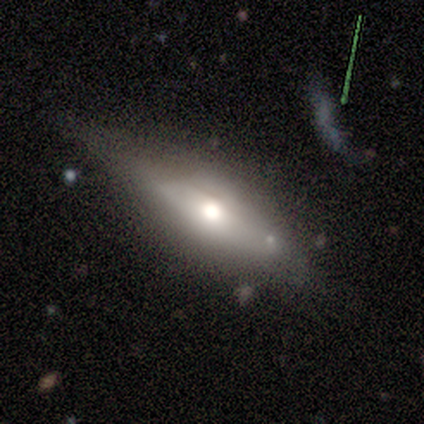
A smooth galaxy with no disk features (60%) that is in between round and cigar-shaped (67%).

Vote fractions:
- Smooth or featured? smooth: 60% / featured or disk: 40% / star or artifact: 0%
- How rounded? in between: 67% / cigar-shaped: 33% / round: 0%
- Merging? none: 60% / minor disturbance: 20% / major disturbance: 20% / merger: 0%